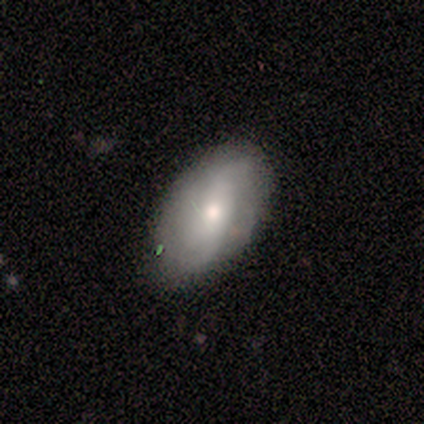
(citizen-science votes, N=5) featured or disk 60%, smooth 40%, star or artifact 0%. Down the decision tree: edge-on disk — no (100%); bar — no (67%); spiral arms — no (67%); bulge size — large (33%, tied with moderate and small); merging — none (60%).